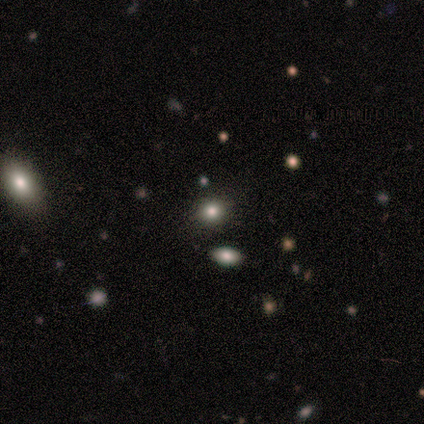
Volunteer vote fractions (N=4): This appears to be a star or artifact, not a galaxy (75%).